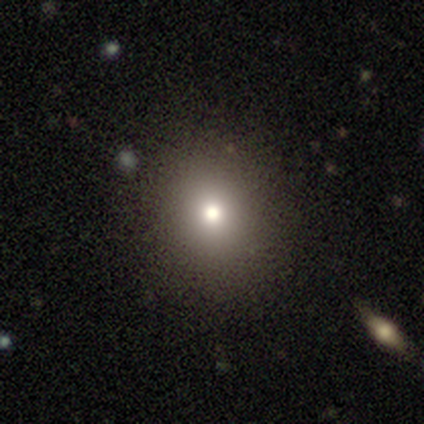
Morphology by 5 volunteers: Q: Smooth or featured?
A: smooth (100%)
Q: How rounded?
A: round (80%); runner-up: in between (20%)
Q: Merging?
A: none (80%); runner-up: minor disturbance (20%)